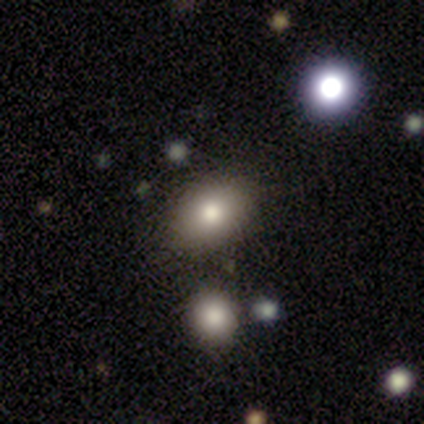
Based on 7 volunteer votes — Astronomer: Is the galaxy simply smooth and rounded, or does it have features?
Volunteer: smooth — 100%.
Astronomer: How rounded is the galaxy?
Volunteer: in between — 57% (runner-up: round, 43%).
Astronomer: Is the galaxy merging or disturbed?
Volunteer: none — 86%.